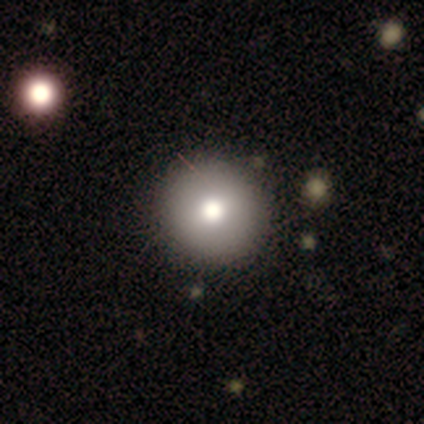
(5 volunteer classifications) smooth 60%, featured or disk 40%, star or artifact 0%. Down the decision tree: how rounded — round (100%); merging — none (100%).